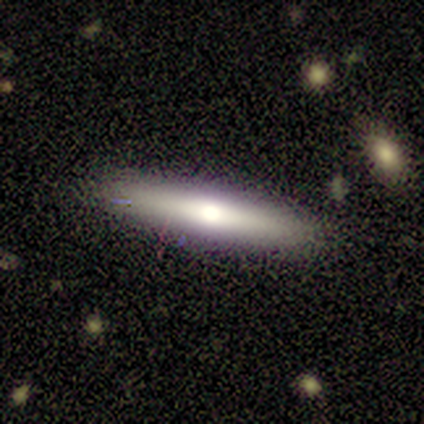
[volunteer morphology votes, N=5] type=smooth (60%); roundness=cigar-shaped (100%); merging=none (100%).